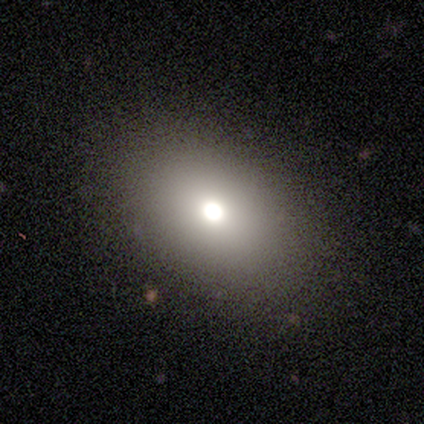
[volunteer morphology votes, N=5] Volunteers were most divided on "smooth or featured": smooth: 60%, featured or disk: 40%, star or artifact: 0%. More confident: merging — none (100%); how rounded — in between (67%).